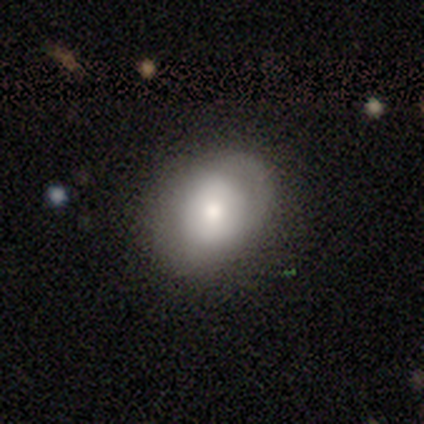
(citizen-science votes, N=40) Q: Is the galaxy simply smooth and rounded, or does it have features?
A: smooth — 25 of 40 (62%).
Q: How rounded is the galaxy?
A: round — 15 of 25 (60%).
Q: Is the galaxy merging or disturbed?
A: none — 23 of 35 (66%).